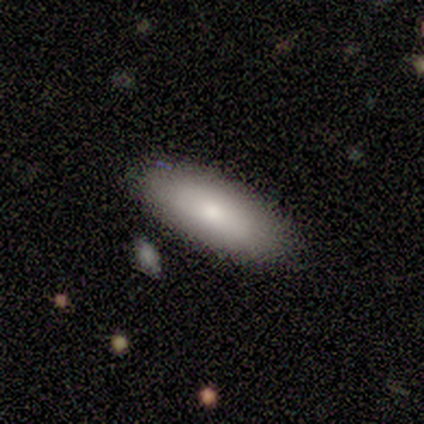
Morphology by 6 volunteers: smooth 67%, featured or disk 33%, star or artifact 0%. Down the decision tree: how rounded — in between (75%); merging — none (50%, tied with minor disturbance).